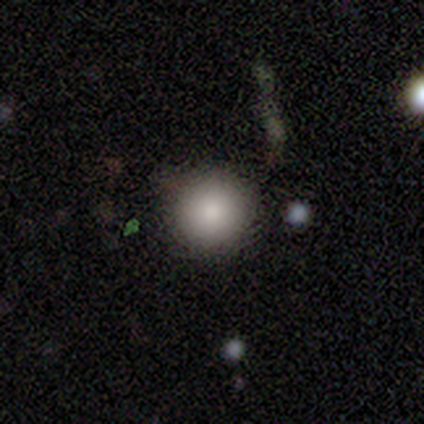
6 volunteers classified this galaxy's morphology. smooth-or-featured: smooth: 100% | featured or disk: 0% | star or artifact: 0%
  how-rounded: round: 100% | in between: 0% | cigar-shaped: 0%
  merging: none: 100% | minor disturbance: 0% | major disturbance: 0% | merger: 0%